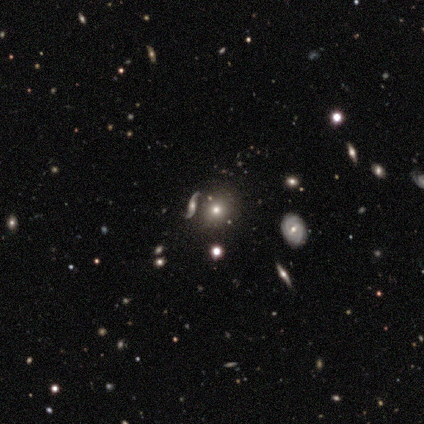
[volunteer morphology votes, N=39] Smooth or featured: smooth — 69% (star or artifact — 21%)
How rounded: round — 93% (in between — 7%)
Merging: none — 84% (merger — 10%)